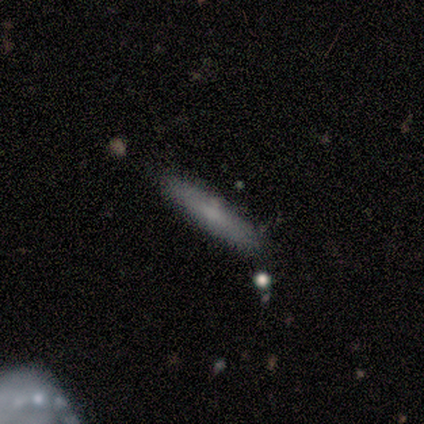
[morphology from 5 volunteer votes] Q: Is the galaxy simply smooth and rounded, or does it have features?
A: smooth — 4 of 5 (80%).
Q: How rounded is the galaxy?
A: cigar-shaped — 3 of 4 (75%).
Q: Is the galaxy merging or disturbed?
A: none — 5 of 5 (100%).